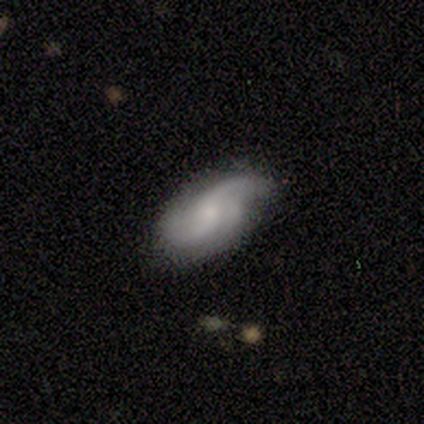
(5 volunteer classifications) A featured or disk galaxy (100%) with a weak bar (50%, tied with no), 2 (75%) loose (75%) spiral arms (100%) and a small central bulge (75%).

Vote fractions:
- Smooth or featured? featured or disk: 100% / smooth: 0% / star or artifact: 0%
- Edge-on disk? no: 80% / yes: 20%
- Bar? weak: 50% (tied) / no: 50% (tied) / strong: 0%
- Spiral arms? yes: 100% / no: 0%
- Spiral winding? loose: 75% / medium: 25% / tight: 0%
- Spiral arm count? 2: 75% / 3: 25% / 1: 0% / 4: 0% / more than 4: 0% / can't tell: 0%
- Bulge size? small: 75% / moderate: 25% / dominant: 0% / large: 0% / none: 0%
- Merging? minor disturbance: 60% / none: 40% / major disturbance: 0% / merger: 0%